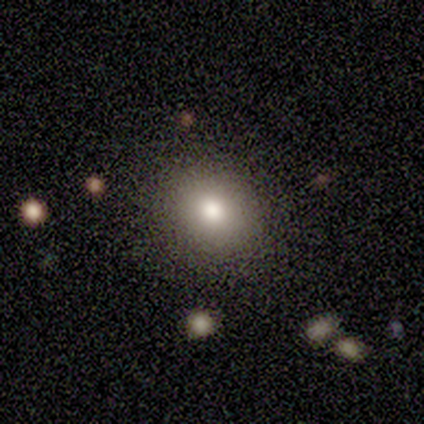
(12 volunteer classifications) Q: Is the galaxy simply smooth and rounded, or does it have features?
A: smooth — 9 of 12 (75%).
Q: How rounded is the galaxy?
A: in between — 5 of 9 (56%).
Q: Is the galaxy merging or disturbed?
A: none — 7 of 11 (64%).